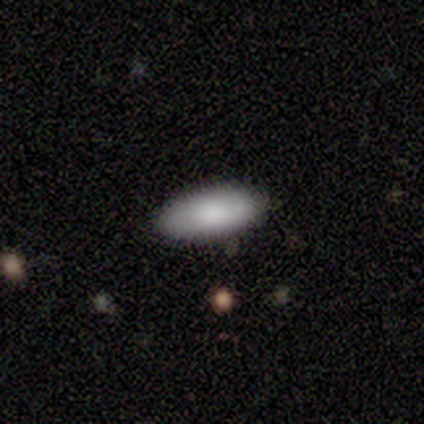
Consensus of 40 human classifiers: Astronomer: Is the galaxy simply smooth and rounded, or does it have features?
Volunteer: smooth — 85%.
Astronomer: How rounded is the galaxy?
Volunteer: in between — 88%.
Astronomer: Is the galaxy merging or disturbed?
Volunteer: none — 87%.